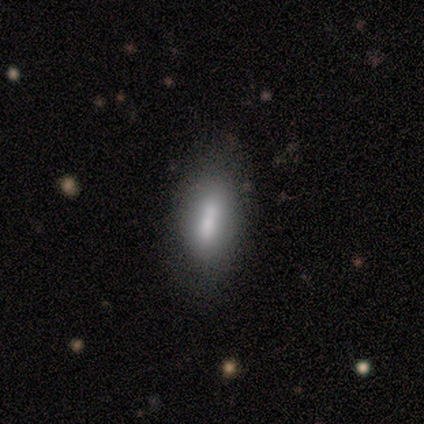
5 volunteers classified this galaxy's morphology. Volunteers were most divided on "merging" (2-way tie): none: 50%, minor disturbance: 50%, major disturbance: 0%, merger: 0%. More confident: how rounded — in between (67%); smooth or featured — smooth (60%).